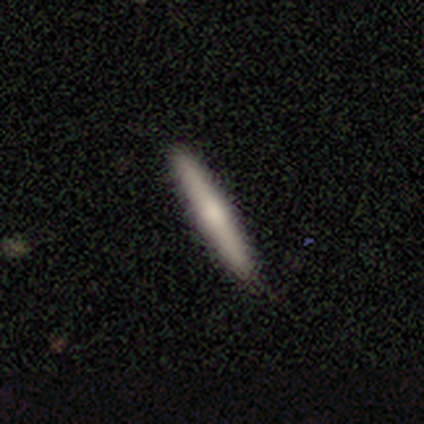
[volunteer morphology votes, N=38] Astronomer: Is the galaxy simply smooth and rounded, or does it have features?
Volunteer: smooth — 58% (runner-up: featured or disk, 34%).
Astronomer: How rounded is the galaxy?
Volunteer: cigar-shaped — 100%.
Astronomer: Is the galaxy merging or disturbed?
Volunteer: none — 91%.